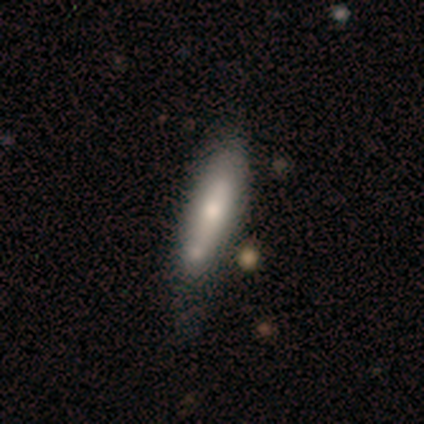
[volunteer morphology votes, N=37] This appears to be a smooth galaxy with no disk features (57%) that is cigar-shaped (52%). Merging: none (47%).